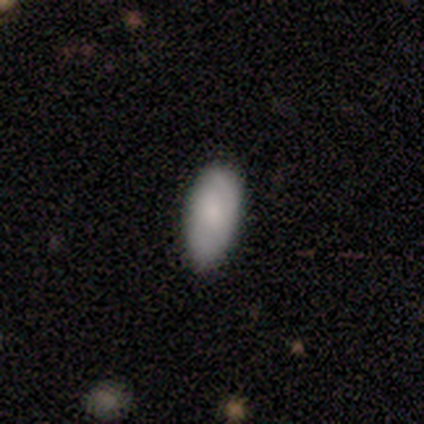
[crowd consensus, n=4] Overall: smooth (100%). How rounded: in between (75%). Merging: none (50%, tied with minor disturbance).